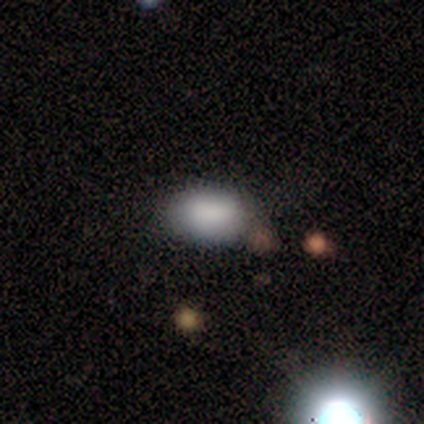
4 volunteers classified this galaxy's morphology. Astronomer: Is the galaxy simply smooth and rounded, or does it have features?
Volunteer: smooth — 100%.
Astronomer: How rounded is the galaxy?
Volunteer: in between — 75%.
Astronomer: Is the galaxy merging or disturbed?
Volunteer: none — 75%.